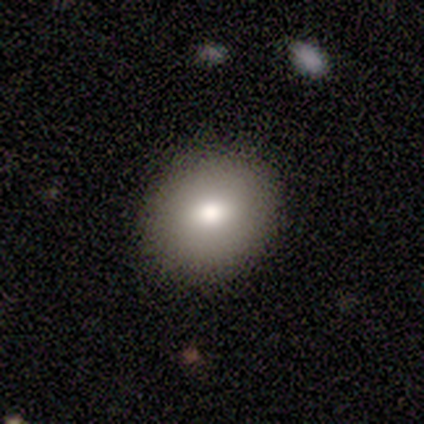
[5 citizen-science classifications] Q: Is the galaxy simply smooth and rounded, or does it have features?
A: smooth — 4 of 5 (80%).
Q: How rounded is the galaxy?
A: round — 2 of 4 (50%, tied with in between).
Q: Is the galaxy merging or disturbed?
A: none — 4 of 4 (100%).